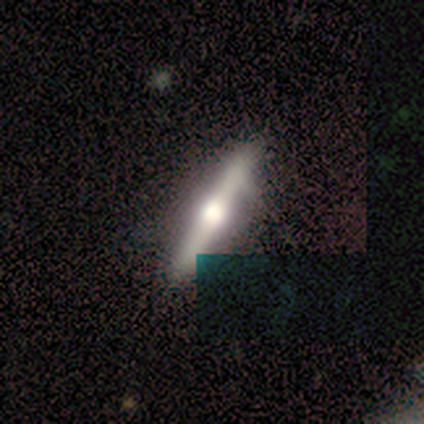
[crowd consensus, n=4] A featured or disk galaxy (75%) viewed edge-on (100%) with a rounded central bulge (100%). Merging: none (100%).